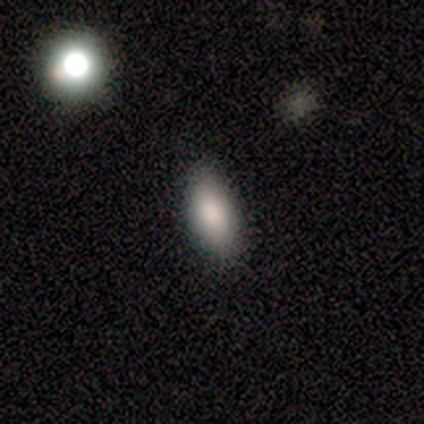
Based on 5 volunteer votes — This appears to be a smooth galaxy with no disk features (80%) that is in between round and cigar-shaped (100%). Merging: none (75%).